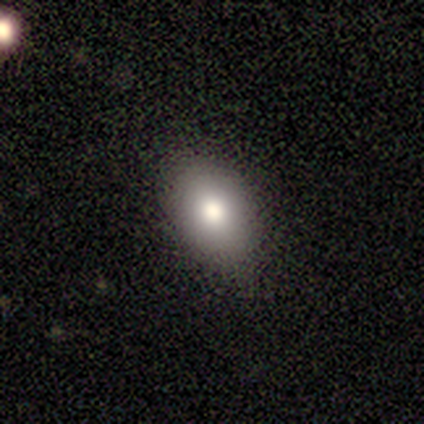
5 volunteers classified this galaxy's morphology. type=smooth (60%); roundness=in between (100%); merging=none (75%).